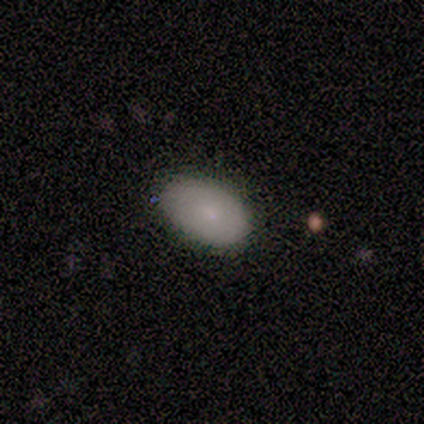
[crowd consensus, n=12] A smooth galaxy with no disk features (83%) that is in between round and cigar-shaped (90%). Merging: none (82%).